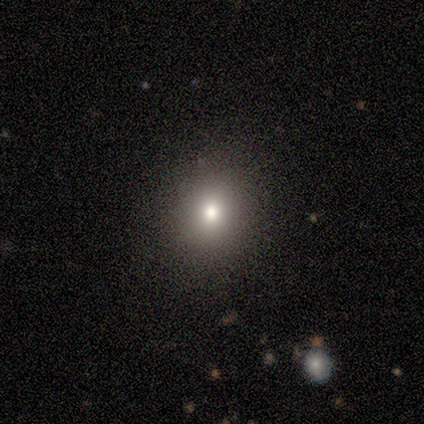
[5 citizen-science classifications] Smooth or featured?
  - smooth: 40% * (tied)
  - star or artifact: 40% * (tied)
  - featured or disk: 20%
How rounded?
  - round: 100% *
  - in between: 0%
  - cigar-shaped: 0%
Merging?
  - none: 100% *
  - minor disturbance: 0%
  - major disturbance: 0%
  - merger: 0%